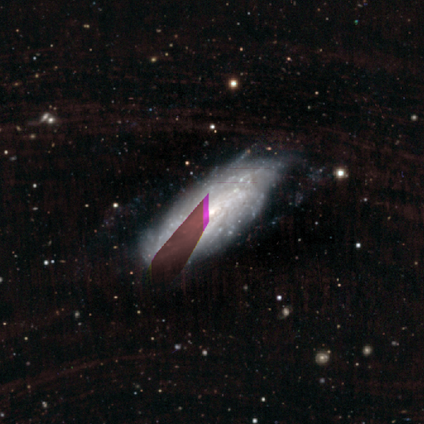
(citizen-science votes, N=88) Q: Smooth or featured?
A: featured or disk (75%); runner-up: star or artifact (17%)
Q: Edge-on disk?
A: no (89%); runner-up: yes (11%)
Q: Bar?
A: no (81%); runner-up: weak (12%)
Q: Spiral arms?
A: yes (86%); runner-up: no (14%)
Q: Spiral winding?
A: tight (73%); runner-up: medium (20%)
Q: Spiral arm count?
A: can't tell (80%); runner-up: more than 4 (14%)
Q: Bulge size?
A: small (58%); runner-up: moderate (37%)
Q: Merging?
A: none (67%); runner-up: minor disturbance (26%)